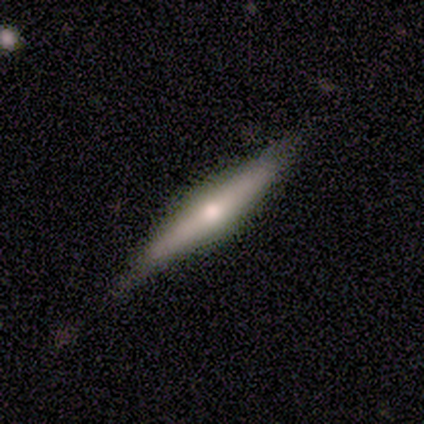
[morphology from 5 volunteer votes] A featured or disk galaxy (60%) viewed edge-on (100%) with a rounded central bulge (67%). Merging: none (100%).